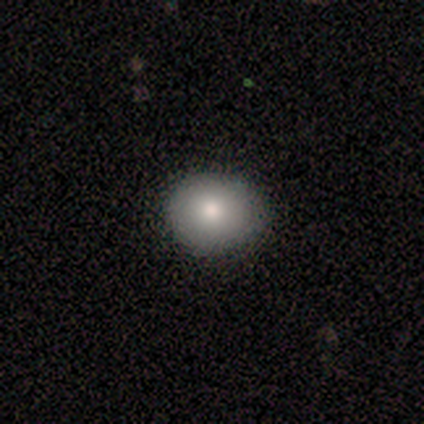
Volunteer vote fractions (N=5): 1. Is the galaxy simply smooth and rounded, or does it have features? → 100% smooth, 0% featured or disk, 0% star or artifact.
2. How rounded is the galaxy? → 60% round, 40% in between, 0% cigar-shaped.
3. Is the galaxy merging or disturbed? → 100% none, 0% minor disturbance, 0% major disturbance, 0% merger.